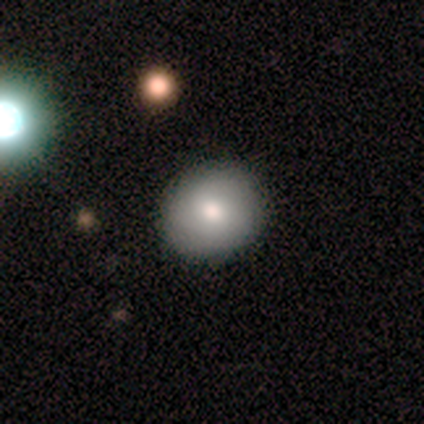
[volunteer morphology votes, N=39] A smooth galaxy with no disk features (77%) that is round (90%).

Vote fractions:
- Smooth or featured? smooth: 77% / featured or disk: 21% / star or artifact: 3%
- How rounded? round: 90% / in between: 10% / cigar-shaped: 0%
- Merging? none: 87% / minor disturbance: 11% / major disturbance: 3% / merger: 0%